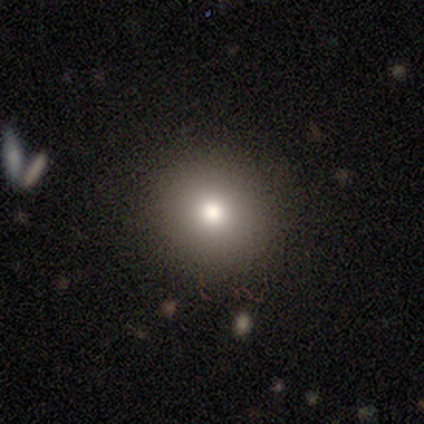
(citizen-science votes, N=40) Overall: smooth (92%). How rounded: round (86%). Merging: none (95%).